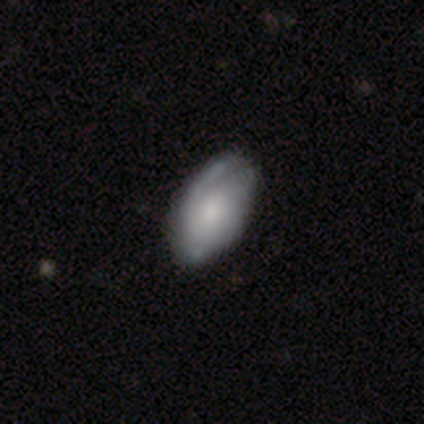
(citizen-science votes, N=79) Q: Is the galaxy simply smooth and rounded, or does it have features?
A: smooth — 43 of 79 (54%).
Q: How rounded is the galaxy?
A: in between — 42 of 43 (98%).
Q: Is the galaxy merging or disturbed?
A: none — 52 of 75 (69%).